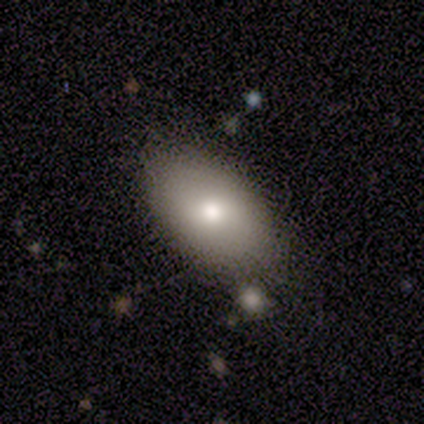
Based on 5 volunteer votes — Smooth or featured?
  - smooth: 80% *
  - star or artifact: 20%
  - featured or disk: 0%
How rounded?
  - in between: 100% *
  - round: 0%
  - cigar-shaped: 0%
Merging?
  - none: 75% *
  - minor disturbance: 25%
  - major disturbance: 0%
  - merger: 0%